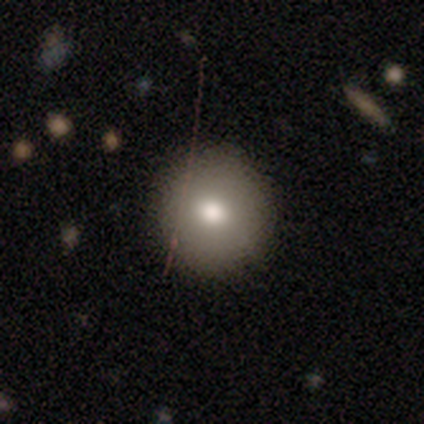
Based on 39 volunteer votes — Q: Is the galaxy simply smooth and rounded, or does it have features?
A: smooth — 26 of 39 (67%).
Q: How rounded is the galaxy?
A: round — 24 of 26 (92%).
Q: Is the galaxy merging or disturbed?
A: none — 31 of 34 (91%).